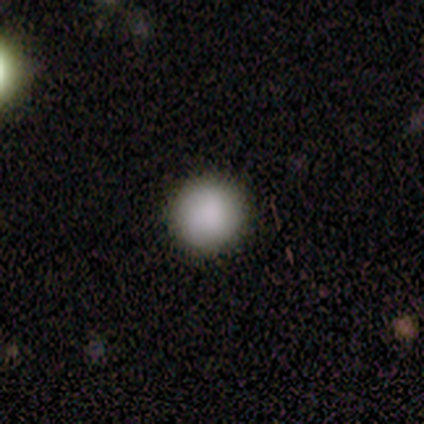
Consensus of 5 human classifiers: This is clearly a smooth galaxy (100%). How rounded: clearly round (100%). Merging: clearly none (100%).